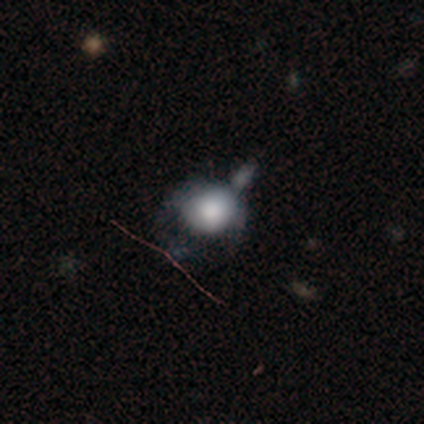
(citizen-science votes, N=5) A featured or disk galaxy (60%) with no bar (100%), no spiral arms (100%) and a dominant central bulge (50%, tied with large).

Vote fractions:
- Smooth or featured? featured or disk: 60% / smooth: 20% / star or artifact: 20%
- Edge-on disk? no: 67% / yes: 33%
- Bar? no: 100% / strong: 0% / weak: 0%
- Spiral arms? no: 100% / yes: 0%
- Bulge size? dominant: 50% (tied) / large: 50% (tied) / moderate: 0% / small: 0% / none: 0%
- Merging? major disturbance: 50% / minor disturbance: 25% / merger: 25% / none: 0%